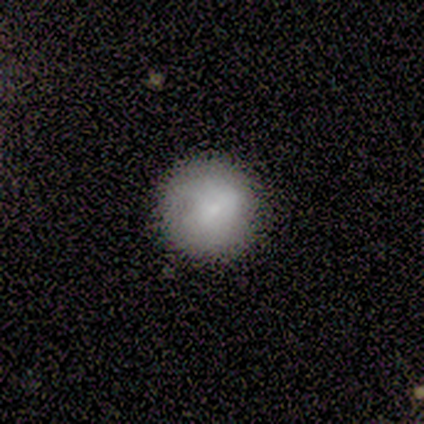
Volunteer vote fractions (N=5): Volunteers were most divided on "merging": none: 60%, minor disturbance: 20%, major disturbance: 20%, merger: 0%. More confident: smooth or featured — smooth (100%); how rounded — round (100%).